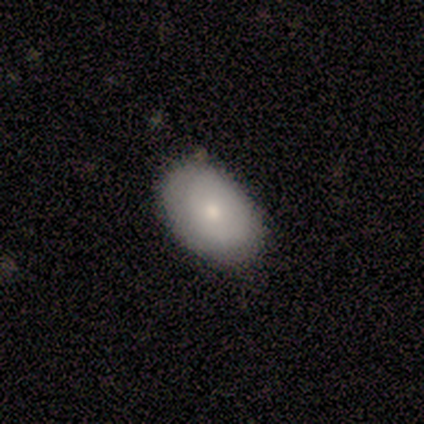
smooth 75%, featured or disk 25%, star or artifact 0%. Down the decision tree: how rounded — in between (67%); merging — none (75%).